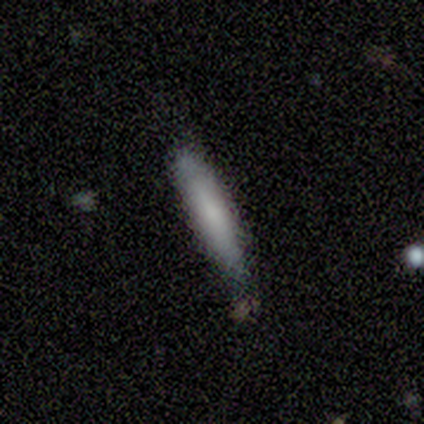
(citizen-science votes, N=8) Overall: smooth (50%; featured or disk 25%). How rounded: cigar-shaped (100%). Merging: none (67%; minor disturbance 33%).